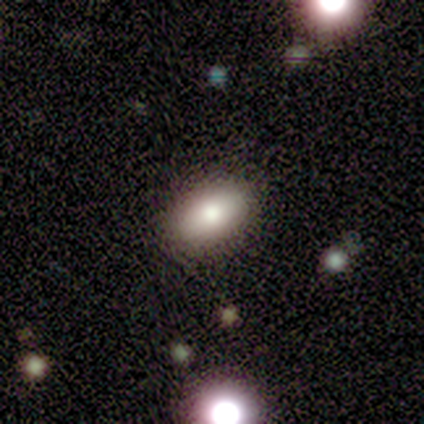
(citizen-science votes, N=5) Q: Smooth or featured?
A: smooth (80%); runner-up: featured or disk (20%)
Q: How rounded?
A: in between (75%); runner-up: round (25%)
Q: Merging?
A: none (100%)